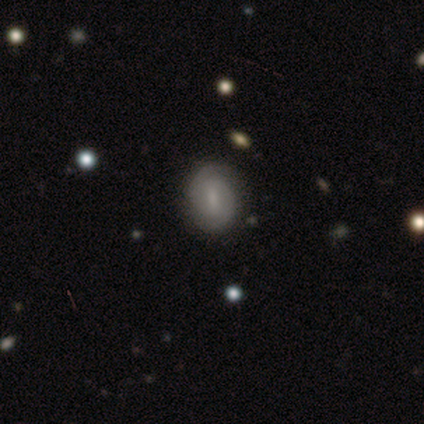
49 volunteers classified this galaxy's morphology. This is likely a featured or disk galaxy (63%). It is clearly not viewed edge-on (100%). Bar: possibly weak (55%). Spiral arm pattern: clearly yes (84%). Spiral arm count: clearly 2 (81%). Spiral winding: likely tight (73%). Central bulge: possibly small (45%). Merging: clearly none (85%).